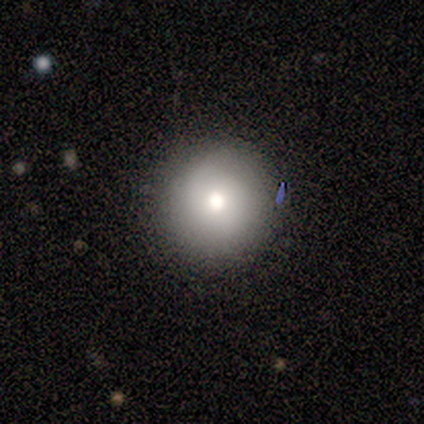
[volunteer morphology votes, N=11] Overall: smooth (45%, tied with featured or disk). How rounded: round (100%). Merging: none (100%).